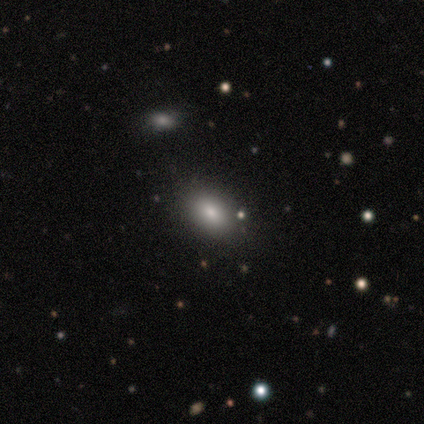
Q: Smooth or featured?
A: smooth (92%); runner-up: star or artifact (8%)
Q: How rounded?
A: in between (75%); runner-up: round (17%)
Q: Merging?
A: none (75%); runner-up: minor disturbance (17%)